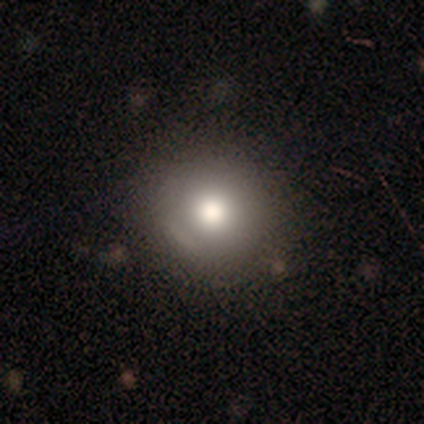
Smooth or featured? smooth (76%)
How rounded? round (83%)
Merging? none (75%)